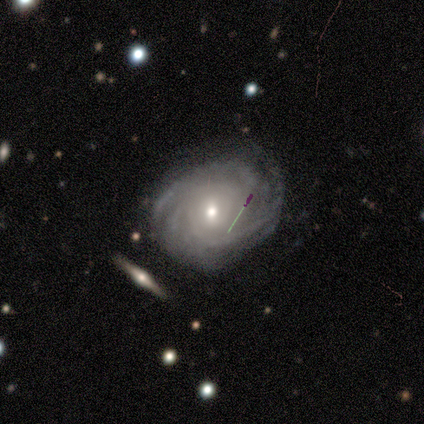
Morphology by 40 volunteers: Q: Smooth or featured?
A: featured or disk (80%); runner-up: smooth (18%)
Q: Edge-on disk?
A: no (94%); runner-up: yes (6%)
Q: Bar?
A: no (63%); runner-up: weak (37%)
Q: Spiral arms?
A: yes (100%)
Q: Spiral winding?
A: tight (70%); runner-up: medium (23%)
Q: Spiral arm count?
A: 3 (40%); runner-up: can't tell (33%)
Q: Bulge size?
A: moderate (57%); runner-up: small (37%)
Q: Merging?
A: none (77%); runner-up: minor disturbance (15%)